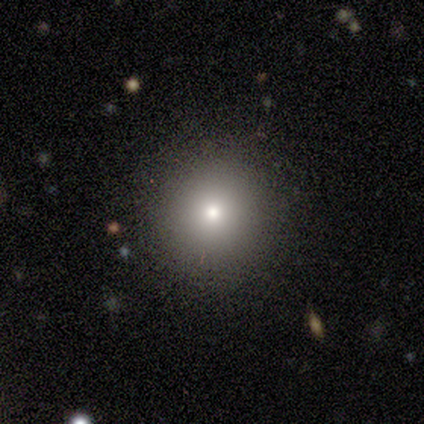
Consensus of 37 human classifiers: This appears to be a smooth galaxy with no disk features (65%) that is round (92%). Merging: none (93%).